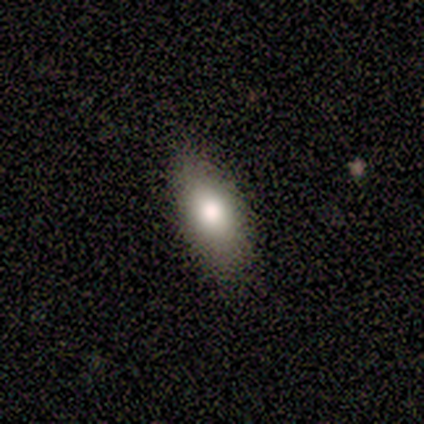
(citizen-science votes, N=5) smooth-or-featured: smooth: 100% | featured or disk: 0% | star or artifact: 0%
  how-rounded: in between: 100% | round: 0% | cigar-shaped: 0%
  merging: none: 100% | minor disturbance: 0% | major disturbance: 0% | merger: 0%